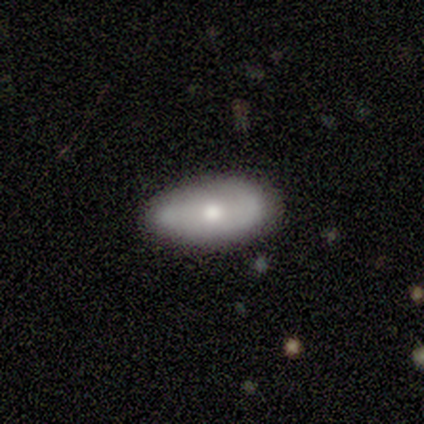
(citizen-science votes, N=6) Smooth or featured: featured or disk — 50% (smooth — 33%)
Edge-on disk: yes — 67% (no — 33%)
Edge-on bulge: rounded — 100%
Merging: none — 60% (minor disturbance — 40%)